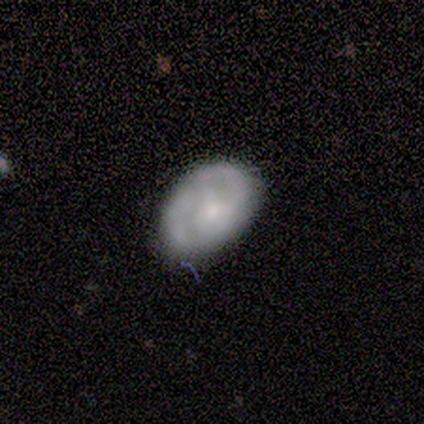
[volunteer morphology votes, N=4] Smooth or featured: smooth — 100%
How rounded: in between — 75% (round — 25%)
Merging: none — 75% (minor disturbance — 25%)